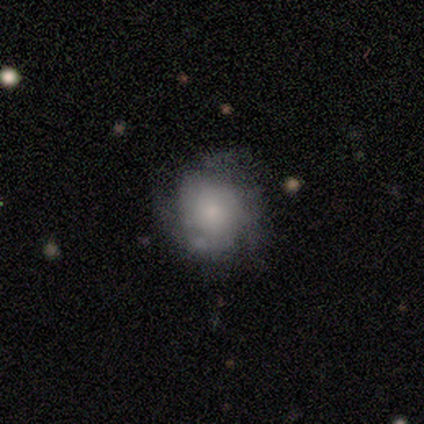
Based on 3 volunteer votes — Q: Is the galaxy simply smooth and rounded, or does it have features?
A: smooth — 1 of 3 (33%, tied with featured or disk and star or artifact).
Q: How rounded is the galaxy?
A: round — 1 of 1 (100%).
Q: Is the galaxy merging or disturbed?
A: none — 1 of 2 (50%, tied with minor disturbance).